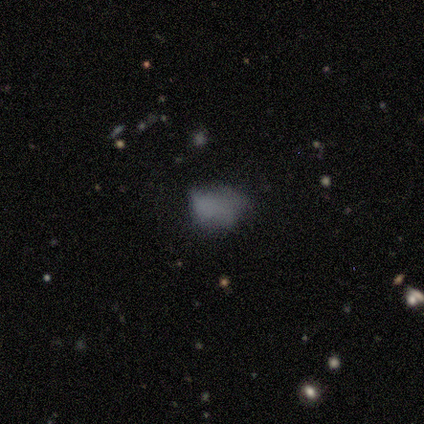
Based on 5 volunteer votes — Q: Smooth or featured?
A: star or artifact (60%); runner-up: smooth (40%)